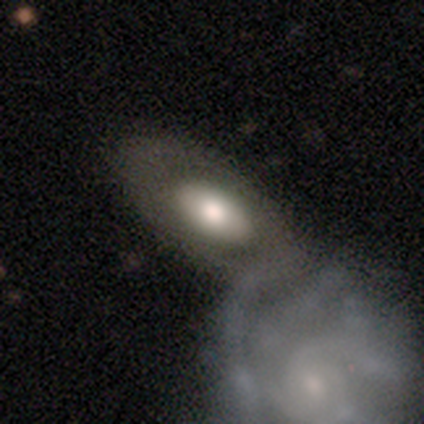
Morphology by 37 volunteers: Smooth or featured? 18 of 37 (49%) said smooth. How rounded? 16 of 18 (89%) said in between. Merging? 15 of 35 (43%) said none.